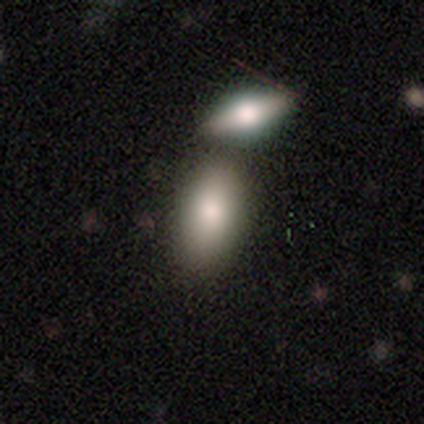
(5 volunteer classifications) Overall: smooth (60%; featured or disk 20%). How rounded: in between (100%). Merging: none (50%; minor disturbance 25%).